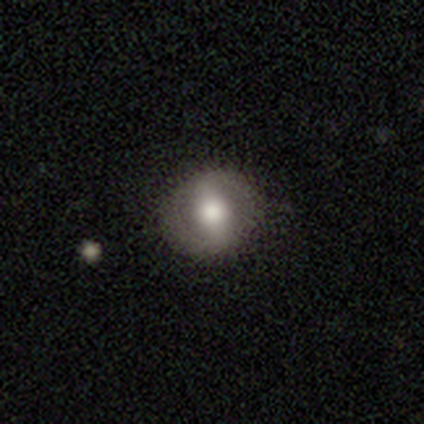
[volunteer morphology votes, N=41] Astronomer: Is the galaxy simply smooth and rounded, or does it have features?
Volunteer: featured or disk — 51% (runner-up: smooth, 46%).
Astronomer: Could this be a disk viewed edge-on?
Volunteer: no — 95%.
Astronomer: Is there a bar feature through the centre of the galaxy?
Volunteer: strong — 60%.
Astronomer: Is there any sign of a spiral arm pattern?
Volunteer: no — 70%.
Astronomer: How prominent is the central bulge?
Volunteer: moderate — 55%.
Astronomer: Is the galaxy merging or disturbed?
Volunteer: none — 90%.